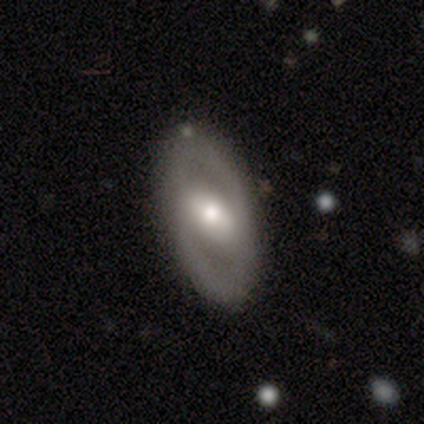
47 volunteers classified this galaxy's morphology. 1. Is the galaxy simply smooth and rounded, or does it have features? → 62% featured or disk, 34% smooth, 4% star or artifact.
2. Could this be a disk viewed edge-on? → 86% no, 14% yes.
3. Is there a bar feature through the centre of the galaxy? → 60% weak, 24% strong, 16% no.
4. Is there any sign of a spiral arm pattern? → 68% no, 32% yes.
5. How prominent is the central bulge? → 64% moderate, 32% small, 4% large, 0% dominant, 0% none.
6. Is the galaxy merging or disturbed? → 82% none, 11% minor disturbance, 7% major disturbance, 0% merger.